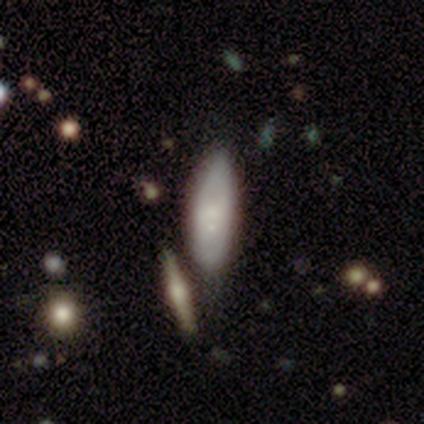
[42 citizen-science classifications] Smooth or featured? smooth (45%)
How rounded? in between (74%)
Merging? none (43%)